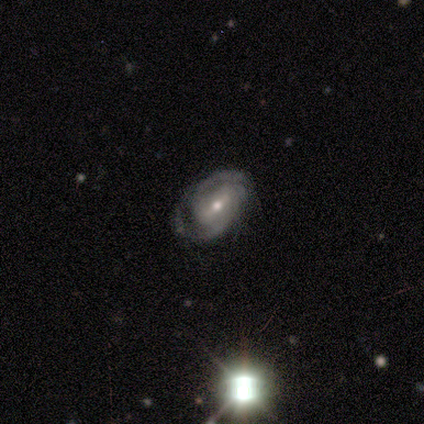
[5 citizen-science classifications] A featured or disk galaxy (100%) with a weak bar (80%), 2 (75%) tight (100%) spiral arms (80%) and a small central bulge (80%). Merging: none (60%).